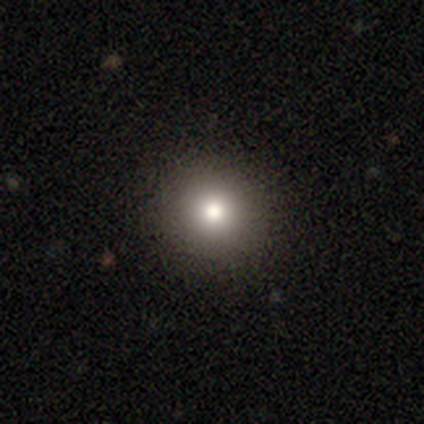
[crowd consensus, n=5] This appears to be a smooth galaxy with no disk features (80%) that is round (100%). Merging: none (100%).